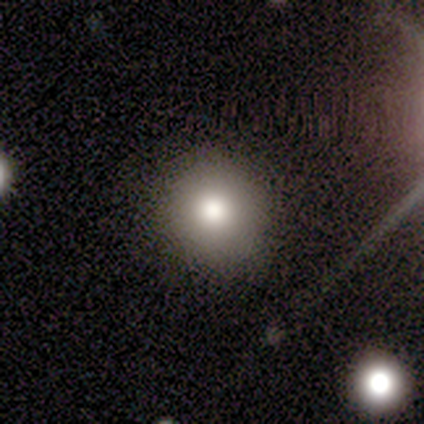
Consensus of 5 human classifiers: Q: Smooth or featured?
A: smooth (80%); runner-up: star or artifact (20%)
Q: How rounded?
A: round (100%)
Q: Merging?
A: none (100%)